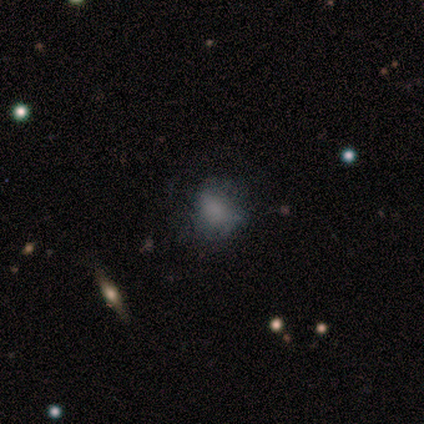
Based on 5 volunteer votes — smooth 40% (tied), featured or disk 40% (tied), star or artifact 20%. Down the decision tree: how rounded — round (100%); merging — none (75%).